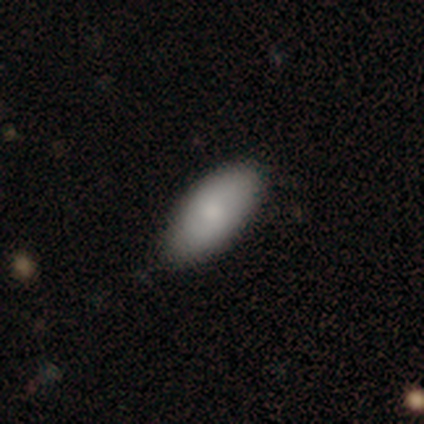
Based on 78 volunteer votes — A smooth galaxy with no disk features (81%) that is in between round and cigar-shaped (95%).

Vote fractions:
- Smooth or featured? smooth: 81% / featured or disk: 14% / star or artifact: 5%
- How rounded? in between: 95% / round: 3% / cigar-shaped: 2%
- Merging? none: 47% / minor disturbance: 7% / major disturbance: 1% / merger: 1%